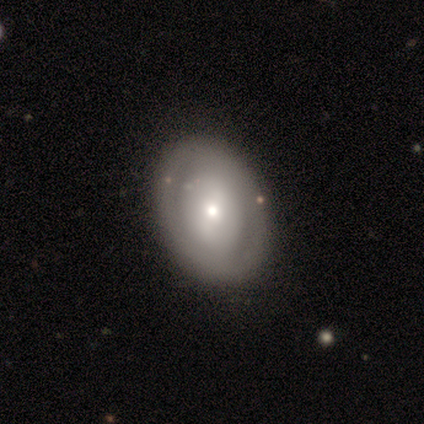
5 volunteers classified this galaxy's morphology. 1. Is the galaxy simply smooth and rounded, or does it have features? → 80% featured or disk, 20% smooth, 0% star or artifact.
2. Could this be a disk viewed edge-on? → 75% no, 25% yes.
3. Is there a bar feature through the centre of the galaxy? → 67% strong, 33% weak, 0% no.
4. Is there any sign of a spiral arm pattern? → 67% yes, 33% no.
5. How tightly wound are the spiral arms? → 100% tight, 0% medium, 0% loose.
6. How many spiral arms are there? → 100% 2, 0% 1, 0% 3, 0% 4, 0% more than 4, 0% can't tell.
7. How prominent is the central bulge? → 100% moderate, 0% dominant, 0% large, 0% small, 0% none.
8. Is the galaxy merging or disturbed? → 100% none, 0% minor disturbance, 0% major disturbance, 0% merger.